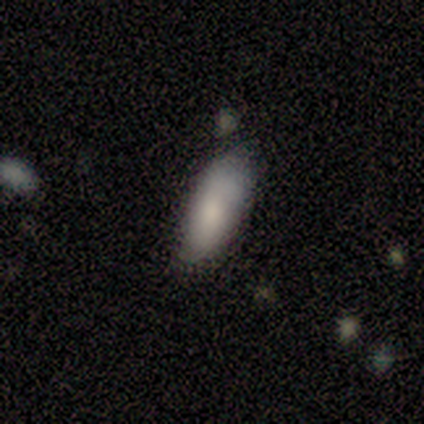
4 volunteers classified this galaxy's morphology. type=smooth (75%); roundness=in between (100%); merging=none (75%).